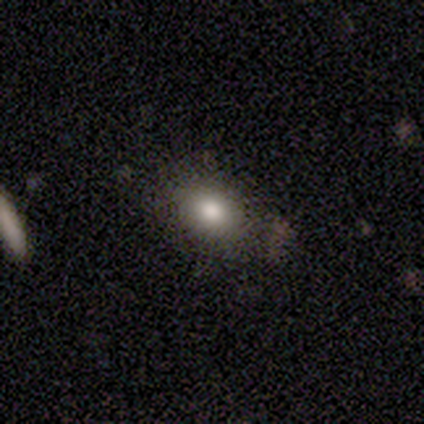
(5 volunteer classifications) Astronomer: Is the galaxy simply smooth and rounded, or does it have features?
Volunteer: smooth — 80%.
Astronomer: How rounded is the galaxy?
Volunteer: in between — 75%.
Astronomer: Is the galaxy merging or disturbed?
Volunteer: none — 80%.